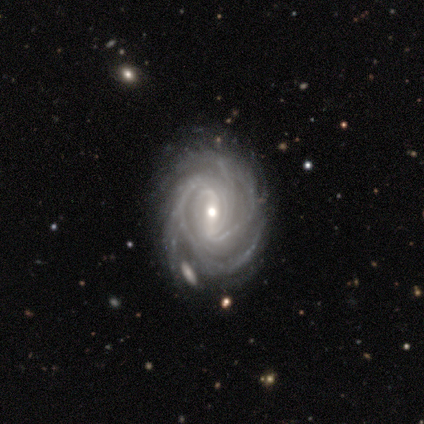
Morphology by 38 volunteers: Smooth or featured? 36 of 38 (95%) said featured or disk. Edge-on disk? 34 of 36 (94%) said no. Bar? 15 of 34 (44%) said weak. Spiral arms? 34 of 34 (100%) said yes. Spiral winding? 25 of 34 (74%) said tight. Spiral arm count? 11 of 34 (32%) said 4. Bulge size? 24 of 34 (71%) said moderate. Merging? 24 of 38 (63%) said none.